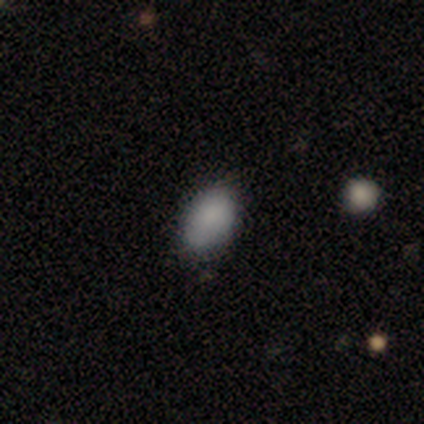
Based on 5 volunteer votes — Smooth or featured?
  - smooth: 100% *
  - featured or disk: 0%
  - star or artifact: 0%
How rounded?
  - in between: 80% *
  - round: 20%
  - cigar-shaped: 0%
Merging?
  - none: 80% *
  - minor disturbance: 20%
  - major disturbance: 0%
  - merger: 0%